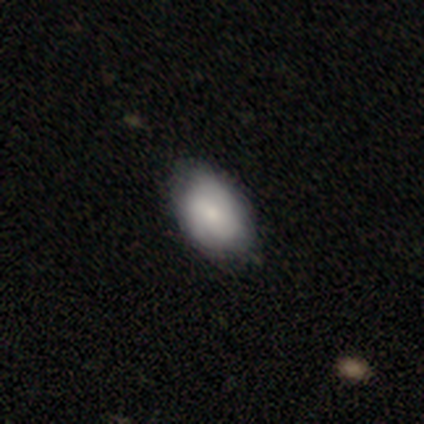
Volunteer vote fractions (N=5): Smooth or featured? smooth (80%)
How rounded? in between (75%)
Merging? minor disturbance (60%)